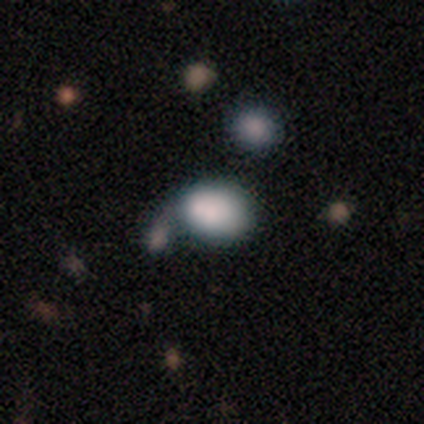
Smooth or featured?
  - smooth: 100% *
  - featured or disk: 0%
  - star or artifact: 0%
How rounded?
  - in between: 100% *
  - round: 0%
  - cigar-shaped: 0%
Merging?
  - none: 100% *
  - minor disturbance: 0%
  - major disturbance: 0%
  - merger: 0%